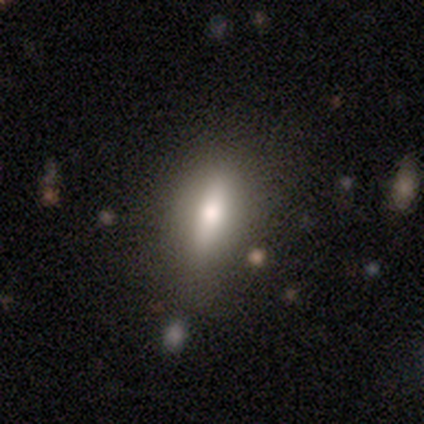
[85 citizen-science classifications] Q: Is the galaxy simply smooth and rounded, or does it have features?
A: smooth — 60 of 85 (71%).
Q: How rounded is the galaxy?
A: cigar-shaped — 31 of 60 (52%).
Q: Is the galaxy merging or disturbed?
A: none — 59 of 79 (75%).